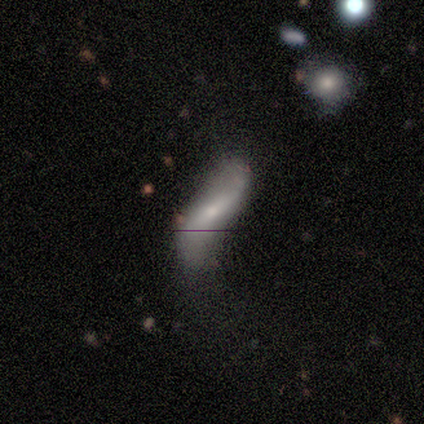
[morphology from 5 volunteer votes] This appears to be a smooth galaxy with no disk features (40%, tied with featured or disk) that is cigar-shaped (100%). Merging: major disturbance (50%).